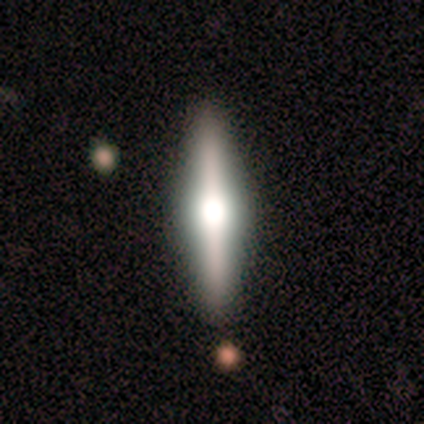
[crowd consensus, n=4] This appears to be a featured or disk galaxy (75%) viewed edge-on (67%) with a rounded central bulge (100%). Merging: none (100%).